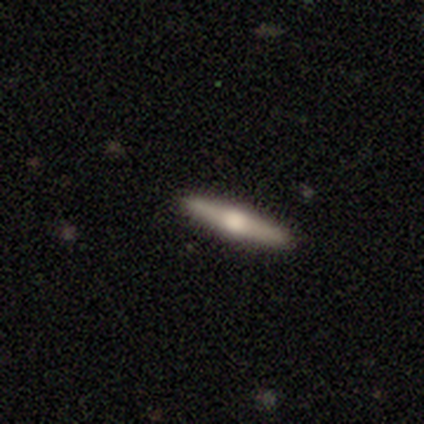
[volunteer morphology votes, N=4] Smooth or featured? smooth (50%, tied with featured or disk)
How rounded? cigar-shaped (100%)
Merging? none (100%)